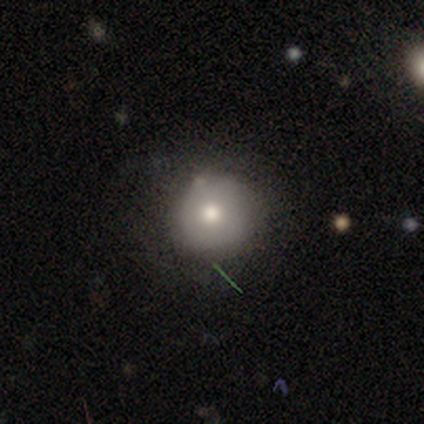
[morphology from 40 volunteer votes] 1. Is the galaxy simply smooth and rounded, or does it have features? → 72% smooth, 15% featured or disk, 12% star or artifact.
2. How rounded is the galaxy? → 97% round, 3% cigar-shaped, 0% in between.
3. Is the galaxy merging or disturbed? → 83% none, 14% minor disturbance, 3% major disturbance, 0% merger.